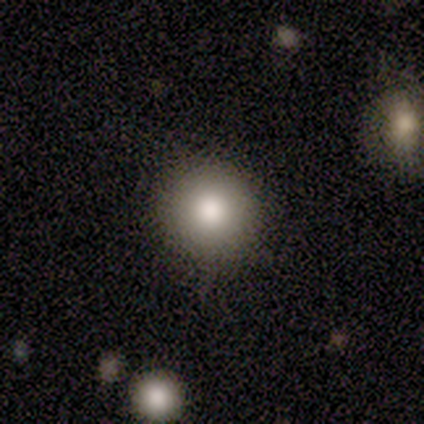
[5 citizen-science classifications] smooth 100%, featured or disk 0%, star or artifact 0%. Down the decision tree: how rounded — round (100%); merging — none (60%).